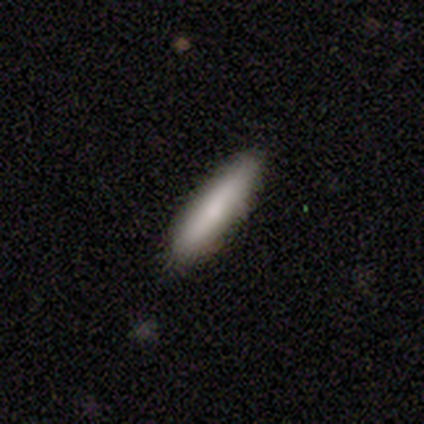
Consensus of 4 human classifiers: This appears to be a smooth galaxy with no disk features (75%) that is cigar-shaped (100%). Merging: none (75%).